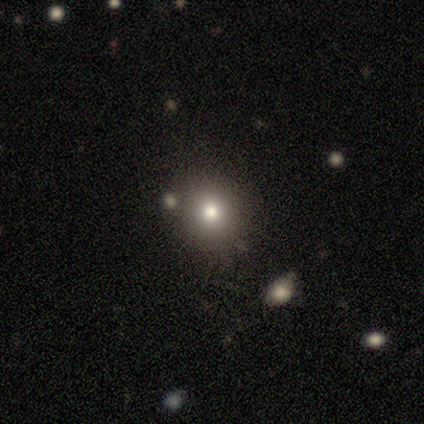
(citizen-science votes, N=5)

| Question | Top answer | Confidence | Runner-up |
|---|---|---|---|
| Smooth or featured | smooth | 100% | — |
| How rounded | round | 100% | — |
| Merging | none | 80% | major disturbance (20%) |